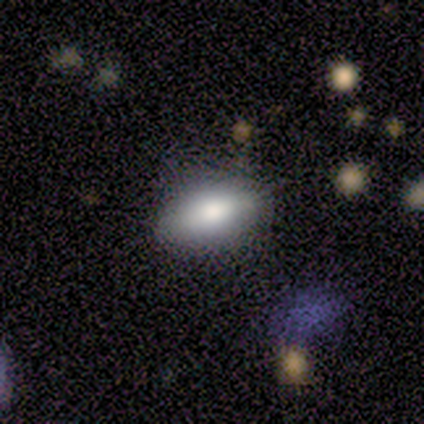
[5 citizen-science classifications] Smooth or featured: smooth — 100%
How rounded: in between — 100%
Merging: none — 80% (minor disturbance — 20%)